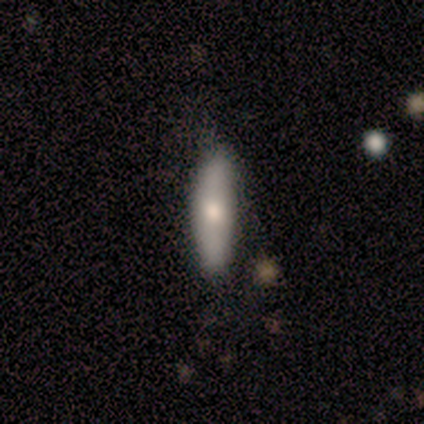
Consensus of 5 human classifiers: A smooth galaxy with no disk features (80%) that is cigar-shaped (75%).

Vote fractions:
- Smooth or featured? smooth: 80% / featured or disk: 20% / star or artifact: 0%
- How rounded? cigar-shaped: 75% / in between: 25% / round: 0%
- Merging? none: 100% / minor disturbance: 0% / major disturbance: 0% / merger: 0%